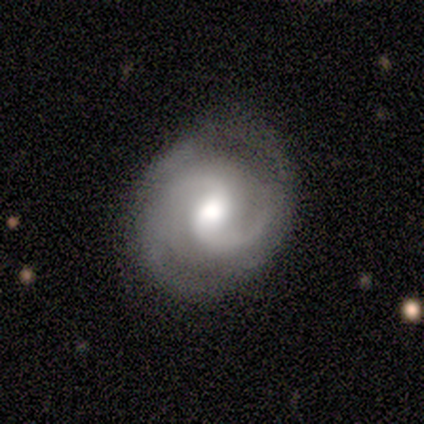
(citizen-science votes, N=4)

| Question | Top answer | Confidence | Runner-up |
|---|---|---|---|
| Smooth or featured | featured or disk | 100% | — |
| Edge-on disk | no | 100% | — |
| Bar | weak | 75% | strong (25%) |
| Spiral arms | yes | 100% | — |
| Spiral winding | medium | 50% | tied: loose (50%) |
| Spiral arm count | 2 | 100% | — |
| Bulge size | moderate | 100% | — |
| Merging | none | 75% | minor disturbance (25%) |